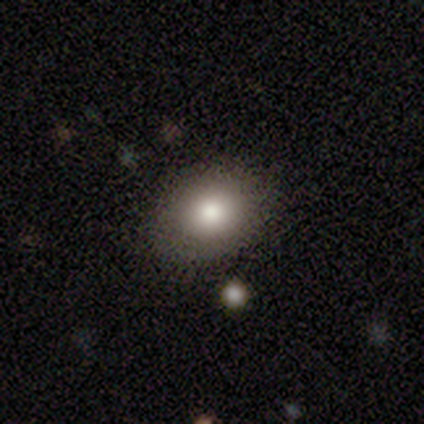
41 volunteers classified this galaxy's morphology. smooth-or-featured: smooth: 83% | featured or disk: 10% | star or artifact: 7%
  how-rounded: in between: 53% | round: 47% | cigar-shaped: 0%
  merging: none: 87% | minor disturbance: 11% | merger: 3% | major disturbance: 0%